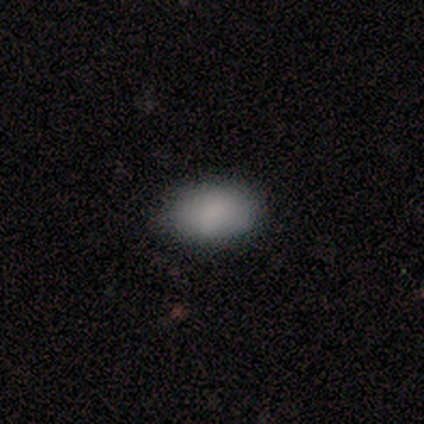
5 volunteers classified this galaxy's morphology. Smooth or featured? 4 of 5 (80%) said smooth. How rounded? 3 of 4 (75%) said in between. Merging? 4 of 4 (100%) said none.